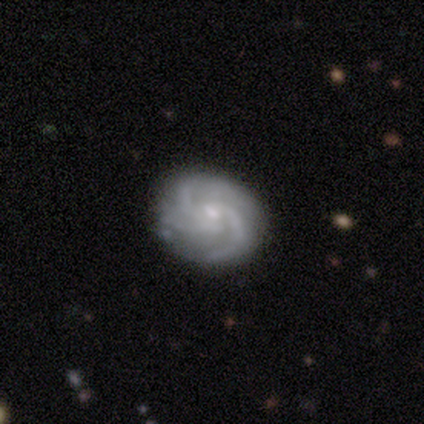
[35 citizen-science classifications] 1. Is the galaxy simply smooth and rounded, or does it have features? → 74% featured or disk, 20% smooth, 6% star or artifact.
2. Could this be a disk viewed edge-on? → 100% no, 0% yes.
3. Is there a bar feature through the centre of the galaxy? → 62% no, 38% weak, 0% strong.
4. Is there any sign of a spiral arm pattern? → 100% yes, 0% no.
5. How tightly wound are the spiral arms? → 46% medium, 42% tight, 12% loose.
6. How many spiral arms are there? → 54% 3, 27% 2, 15% 4, 4% can't tell, 0% 1, 0% more than 4.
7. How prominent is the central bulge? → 65% small, 31% moderate, 4% none, 0% dominant, 0% large.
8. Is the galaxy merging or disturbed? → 73% none, 21% minor disturbance, 3% major disturbance, 3% merger.